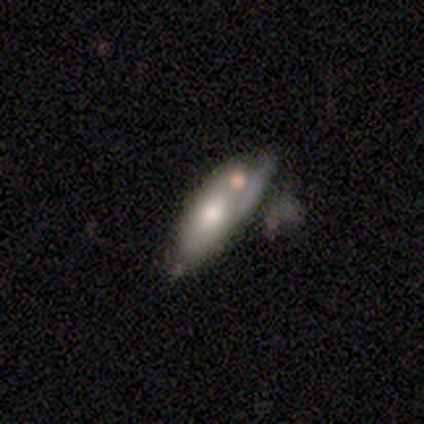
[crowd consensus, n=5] A featured or disk galaxy (60%) viewed edge-on (67%) with a boxy central bulge (50%, tied with none). Merging: minor disturbance (60%).